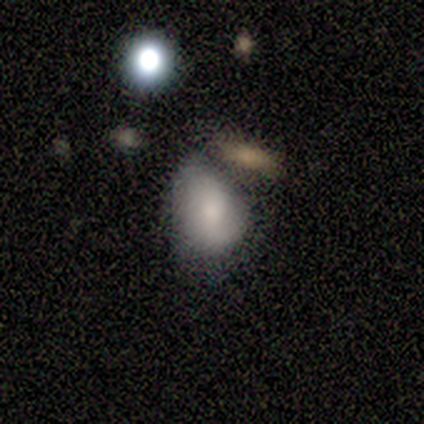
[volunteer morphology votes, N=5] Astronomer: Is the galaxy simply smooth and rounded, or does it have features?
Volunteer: smooth — 100%.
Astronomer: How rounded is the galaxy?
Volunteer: in between — 80%.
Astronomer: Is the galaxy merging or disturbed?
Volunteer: none — 60% (runner-up: merger, 40%).